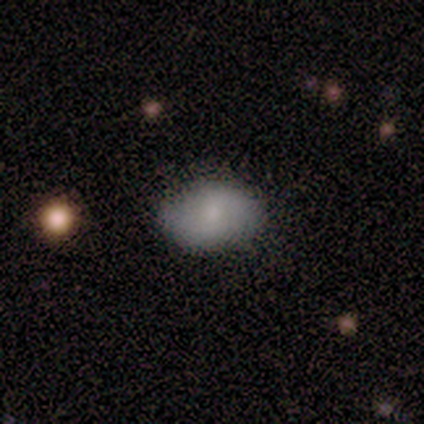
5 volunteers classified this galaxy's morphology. type=smooth (100%); roundness=in between (100%); merging=none (60%).